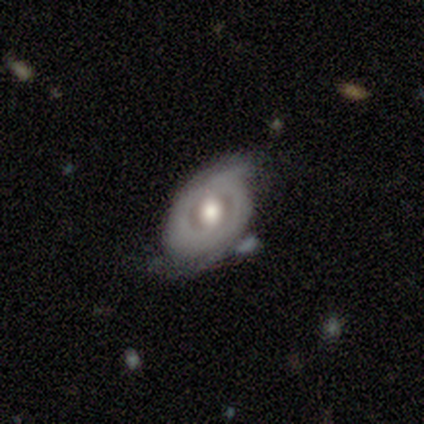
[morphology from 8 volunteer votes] A featured or disk galaxy (88%) with no bar (86%), 2 (100%) tight (67%) spiral arms (86%) and a large central bulge (71%).

Vote fractions:
- Smooth or featured? featured or disk: 88% / smooth: 12% / star or artifact: 0%
- Edge-on disk? no: 100% / yes: 0%
- Bar? no: 86% / weak: 14% / strong: 0%
- Spiral arms? yes: 86% / no: 14%
- Spiral winding? tight: 67% / loose: 33% / medium: 0%
- Spiral arm count? 2: 100% / 1: 0% / 3: 0% / 4: 0% / more than 4: 0% / can't tell: 0%
- Bulge size? large: 71% / moderate: 29% / dominant: 0% / small: 0% / none: 0%
- Merging? none: 75% / minor disturbance: 25% / major disturbance: 0% / merger: 0%